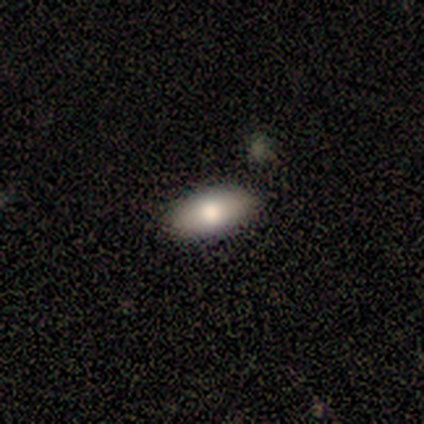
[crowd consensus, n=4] Smooth or featured: smooth — 75% (featured or disk — 25%)
How rounded: in between — 100%
Merging: none — 100%